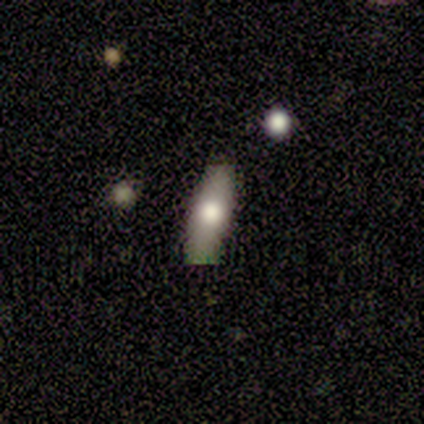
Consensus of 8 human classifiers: smooth_or_featured: smooth (p=1.00)
how_rounded: in between (p=0.50) [tied with: cigar-shaped p=0.50]
merging: none (p=1.00)